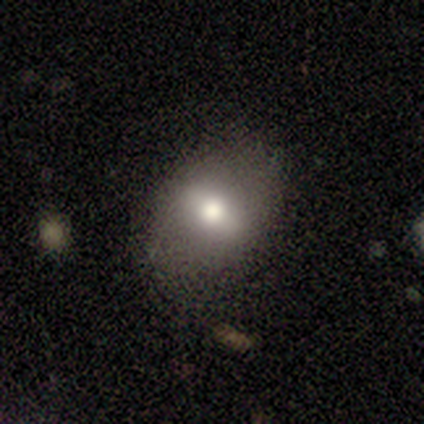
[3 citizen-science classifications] Morphology: type=smooth (100%); roundness=in between (67%); merging=none (100%).